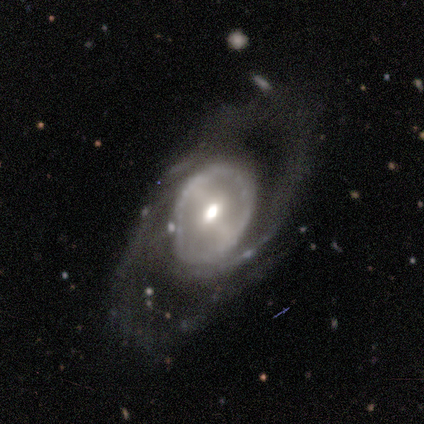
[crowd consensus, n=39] featured or disk 87%, smooth 13%, star or artifact 0%. Down the decision tree: edge-on disk — no (88%); bar — strong (50%); spiral arms — yes (60%); spiral arm count — 2 (61%); spiral winding — loose (44%); bulge size — moderate (60%); merging — none (56%).